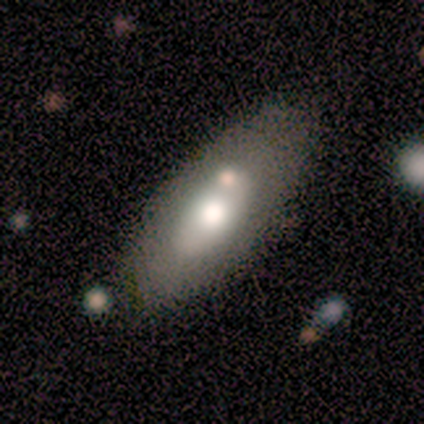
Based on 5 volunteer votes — A smooth galaxy with no disk features (80%) that is in between round and cigar-shaped (100%). Merging: none (80%).